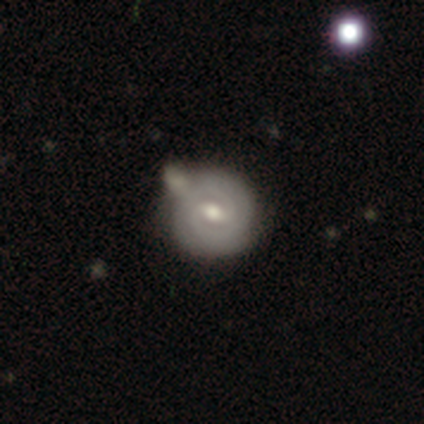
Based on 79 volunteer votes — Q: Smooth or featured?
A: featured or disk (78%); runner-up: smooth (18%)
Q: Edge-on disk?
A: no (98%); runner-up: yes (2%)
Q: Bar?
A: weak (80%); runner-up: strong (10%)
Q: Spiral arms?
A: yes (89%); runner-up: no (11%)
Q: Spiral winding?
A: tight (83%); runner-up: medium (13%)
Q: Spiral arm count?
A: 2 (65%); runner-up: can't tell (28%)
Q: Bulge size?
A: moderate (74%); runner-up: small (23%)
Q: Merging?
A: none (34%); runner-up: merger (25%)